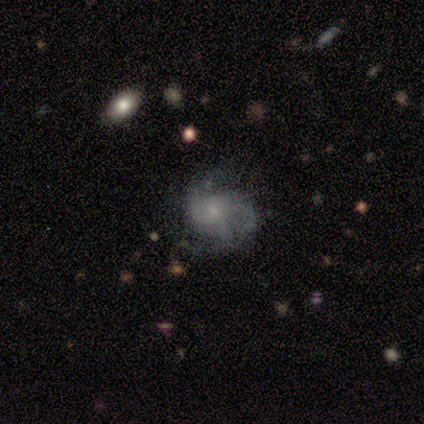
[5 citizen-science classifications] Overall: featured or disk (60%; smooth 40%). Edge-on disk: no (100%). Bar: no (100%). Spiral arms: yes (100%). Spiral arm count: 2 (100%). Spiral winding: loose (100%). Bulge size: small (100%). Merging: none (40%, tied with major disturbance).